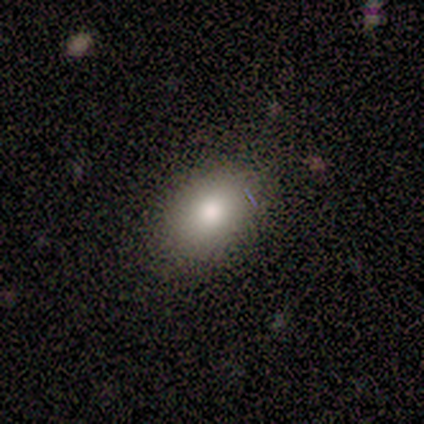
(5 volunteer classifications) Smooth or featured: smooth — 100%
How rounded: in between — 100%
Merging: none — 100%